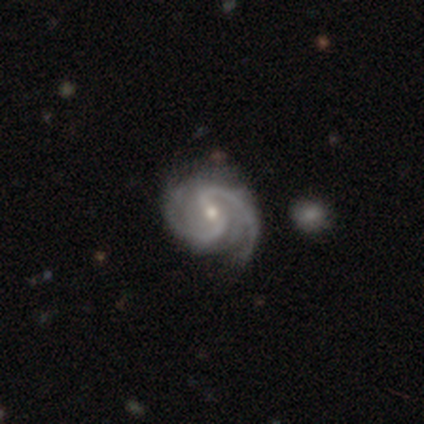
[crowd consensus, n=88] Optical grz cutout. It shows a featured or disk galaxy (92%) with a strong bar (47%), 2 (89%) medium (70%) spiral arms (100%) and a moderate central bulge (50%). Merging: none (77%).